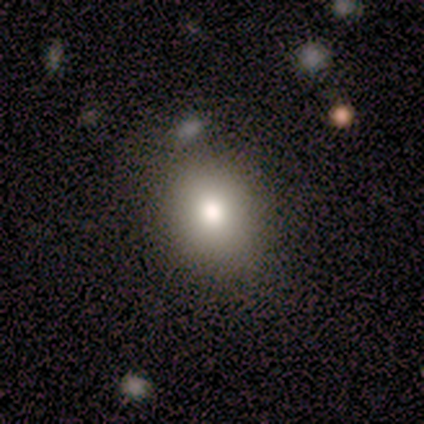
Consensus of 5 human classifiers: Overall: smooth (60%; star or artifact 40%). How rounded: round (100%). Merging: none (100%).